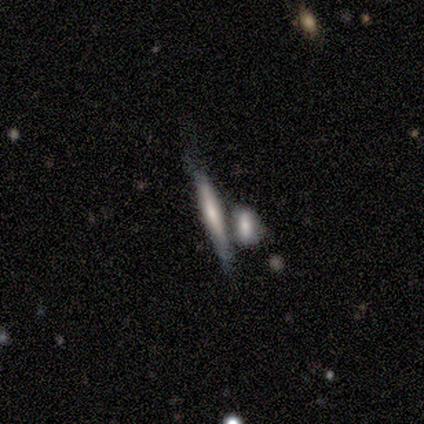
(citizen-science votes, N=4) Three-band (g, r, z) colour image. It shows a smooth galaxy with no disk features (50%) that is cigar-shaped (100%). Merging: none (67%).